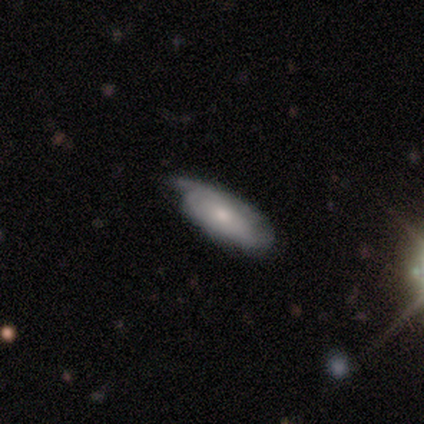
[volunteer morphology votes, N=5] smooth-or-featured: smooth: 80% | featured or disk: 20% | star or artifact: 0%
  how-rounded: in between: 100% | round: 0% | cigar-shaped: 0%
  merging: none: 40% (tied) | major disturbance: 40% (tied) | minor disturbance: 20% | merger: 0%